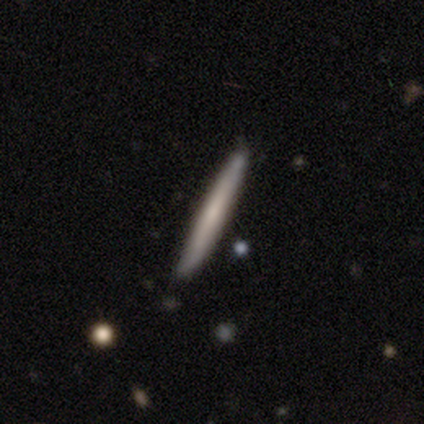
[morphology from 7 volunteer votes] This appears to be a smooth galaxy with no disk features (71%) that is cigar-shaped (100%). Merging: none (100%).